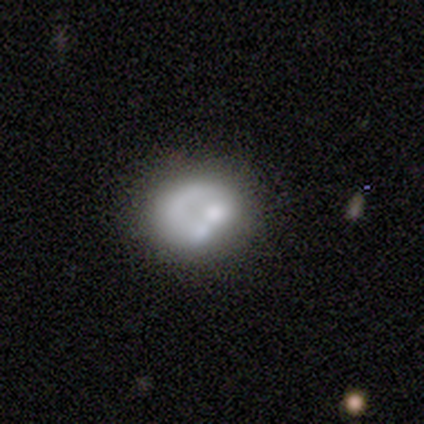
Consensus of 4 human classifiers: Smooth or featured: featured or disk — 75% (smooth — 25%)
Edge-on disk: no — 100%
Bar: no — 100%
Spiral arms: no — 100%
Bulge size: none — 67% (dominant — 33%)
Merging: none — 50% (minor disturbance — 25%)